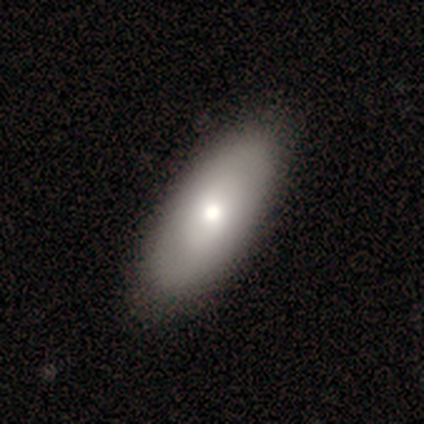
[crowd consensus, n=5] Smooth or featured: smooth — 80% (featured or disk — 20%)
How rounded: in between — 100%
Merging: none — 80% (minor disturbance — 20%)